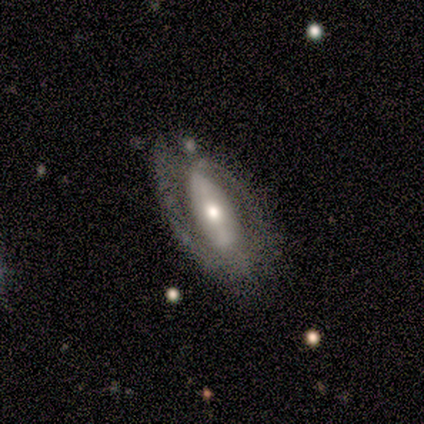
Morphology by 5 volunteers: Overall: featured or disk (80%). Edge-on disk: no (100%). Bar: strong (50%, tied with no). Spiral arms: yes (75%). Spiral arm count: 2 (100%). Spiral winding: tight (33%, tied with medium and loose). Bulge size: moderate (50%, tied with small). Merging: none (60%; minor disturbance 40%).